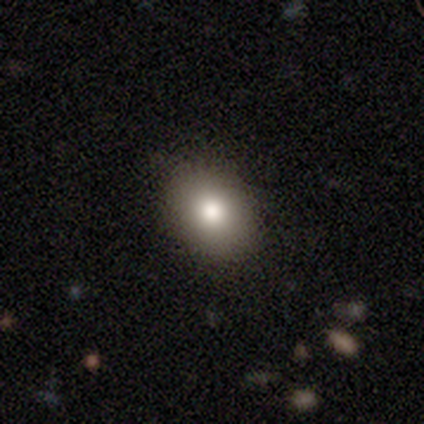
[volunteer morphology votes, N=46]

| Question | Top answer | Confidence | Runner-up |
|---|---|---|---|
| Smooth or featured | smooth | 78% | featured or disk (13%) |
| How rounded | in between | 67% | round (33%) |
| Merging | none | 81% | minor disturbance (14%) |